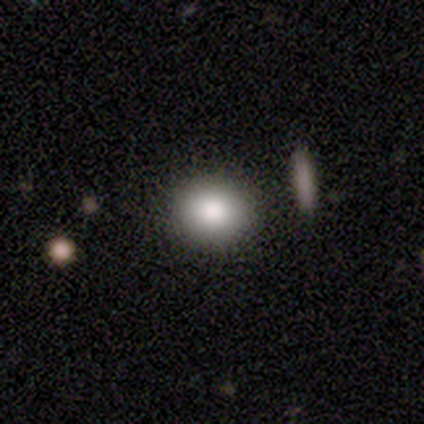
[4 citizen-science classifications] Smooth or featured? smooth (100%)
How rounded? round (75%)
Merging? none (100%)